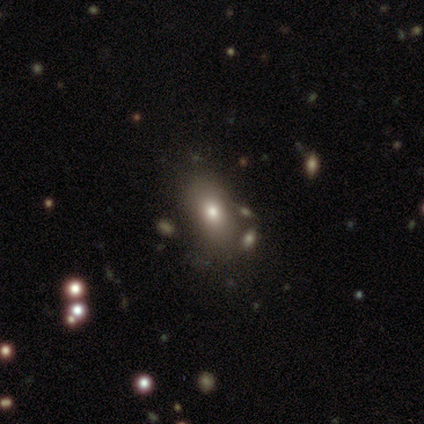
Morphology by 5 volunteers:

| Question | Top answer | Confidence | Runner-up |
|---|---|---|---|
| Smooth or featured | smooth | 80% | featured or disk (20%) |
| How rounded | in between | 100% | — |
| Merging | none | 40% | tied: merger (40%) |